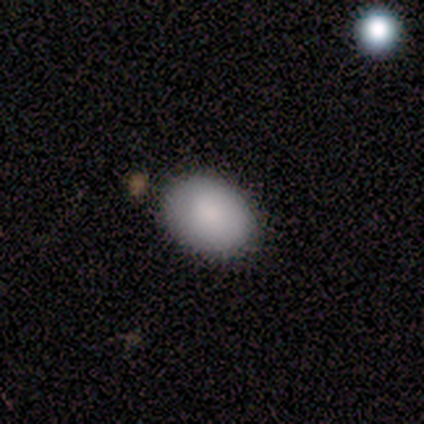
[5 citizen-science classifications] Volunteers were most divided on "merging" (2-way tie): none: 50%, minor disturbance: 50%, major disturbance: 0%, merger: 0%. More confident: how rounded — in between (100%); smooth or featured — smooth (80%).